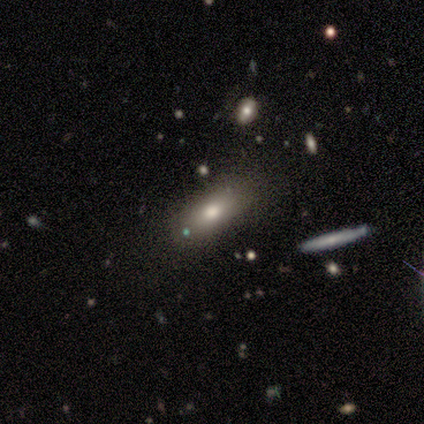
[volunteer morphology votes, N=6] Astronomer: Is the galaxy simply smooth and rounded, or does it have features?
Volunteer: smooth — 50%, tied with featured or disk at 50%.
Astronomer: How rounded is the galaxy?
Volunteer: in between — 67%.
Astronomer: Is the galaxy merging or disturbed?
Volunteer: none — 67%.